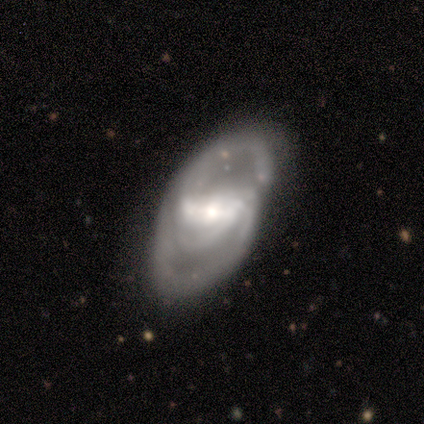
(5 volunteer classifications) This appears to be a featured or disk galaxy (80%) with a strong bar (100%), 2 (75%) medium (50%) spiral arms (100%) and a small central bulge (50%). Merging: none (80%).